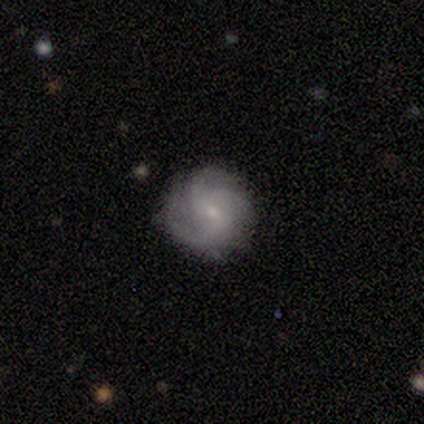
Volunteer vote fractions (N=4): This appears to be a featured or disk galaxy (100%) with no bar (75%), 3 (100%) loose (50%) spiral arms (100%) and a moderate central bulge (50%, tied with small). Merging: none (75%).